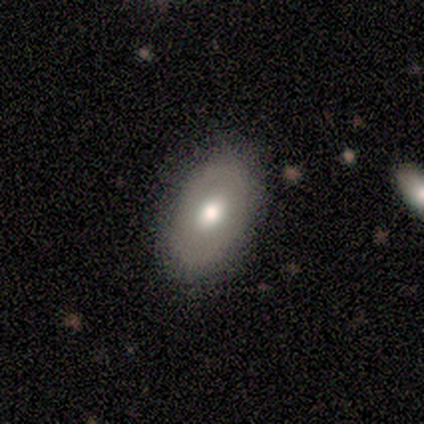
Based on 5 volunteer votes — Smooth or featured?
  - smooth: 60% *
  - featured or disk: 20%
  - star or artifact: 20%
How rounded?
  - in between: 100% *
  - round: 0%
  - cigar-shaped: 0%
Merging?
  - none: 75% *
  - minor disturbance: 25%
  - major disturbance: 0%
  - merger: 0%